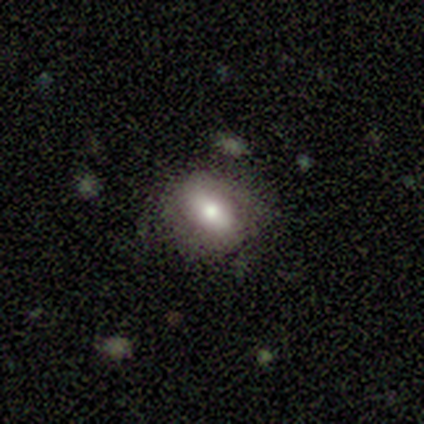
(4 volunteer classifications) This appears to be a smooth galaxy with no disk features (50%, tied with featured or disk) that is in between round and cigar-shaped (100%). Merging: none (100%).